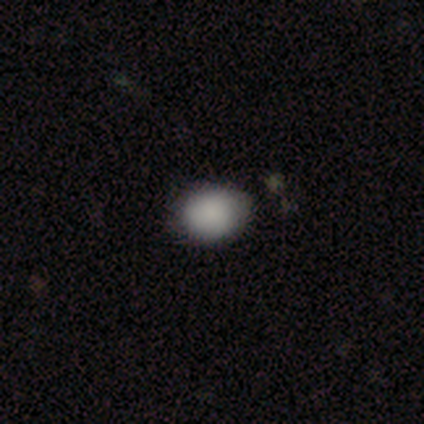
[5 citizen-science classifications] Morphology: type=smooth (100%); roundness=in between (60%); merging=none (100%).